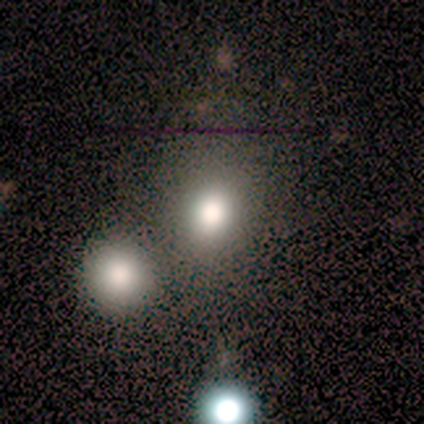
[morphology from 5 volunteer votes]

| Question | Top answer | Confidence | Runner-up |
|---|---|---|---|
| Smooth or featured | smooth | 100% | — |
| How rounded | in between | 80% | round (20%) |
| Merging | none | 80% | merger (20%) |